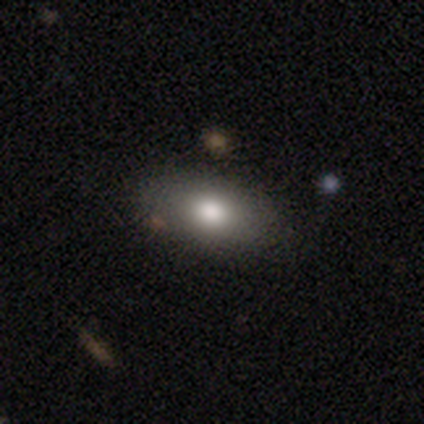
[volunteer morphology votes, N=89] A smooth galaxy with no disk features (76%) that is in between round and cigar-shaped (93%). Merging: none (86%).